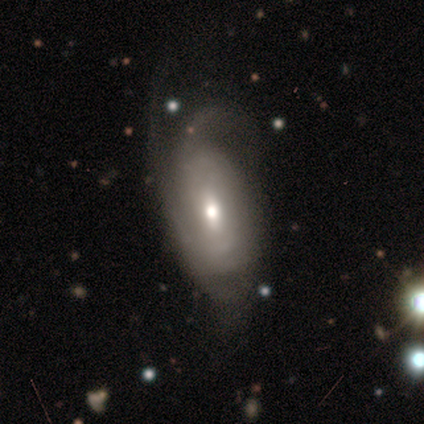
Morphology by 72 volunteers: Smooth or featured?
  - featured or disk: 71% *
  - smooth: 24%
  - star or artifact: 6%
Edge-on disk?
  - no: 100% *
  - yes: 0%
Bar?
  - no: 49% *
  - weak: 47%
  - strong: 4%
Spiral arms?
  - yes: 82% *
  - no: 18%
Spiral winding?
  - tight: 43% *
  - medium: 38%
  - loose: 19%
Spiral arm count?
  - can't tell: 40% *
  - 2: 29%
  - 3: 26%
  - 1: 2%
  - 4: 2%
  - more than 4: 0%
Bulge size?
  - moderate: 61% *
  - small: 24%
  - large: 14%
  - dominant: 2%
  - none: 0%
Merging?
  - major disturbance: 37% *
  - none: 34%
  - minor disturbance: 26%
  - merger: 3%